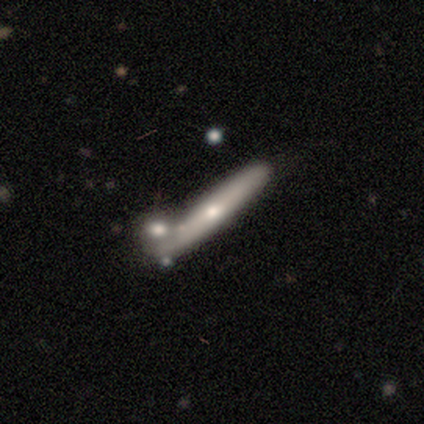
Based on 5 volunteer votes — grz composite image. It shows a smooth galaxy with no disk features (40%, tied with featured or disk) that is cigar-shaped (100%). Merging: none (75%).